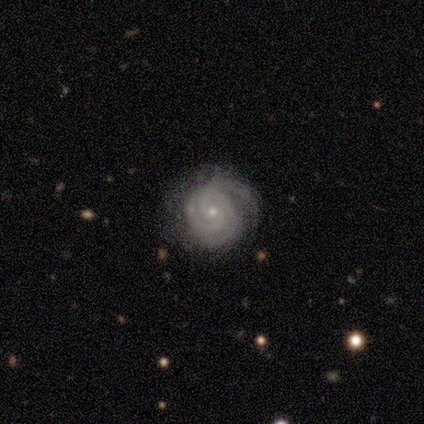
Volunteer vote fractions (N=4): A featured or disk galaxy (100%) with no bar (75%), 3 (75%) tight (100%) spiral arms (100%) and a small central bulge (100%). Merging: none (75%).